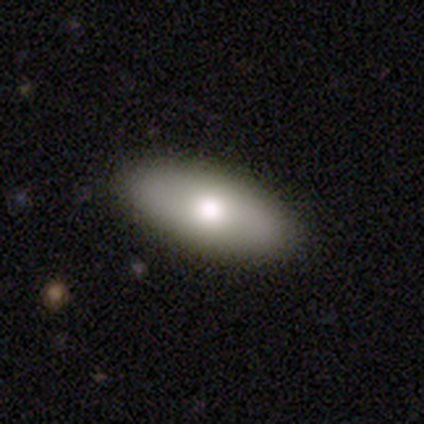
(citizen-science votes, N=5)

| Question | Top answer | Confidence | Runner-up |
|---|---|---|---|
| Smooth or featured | smooth | 80% | featured or disk (20%) |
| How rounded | in between | 100% | — |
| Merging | none | 100% | — |